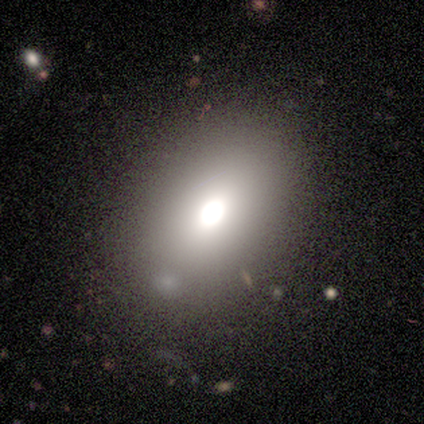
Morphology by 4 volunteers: Smooth or featured: smooth — 50% (featured or disk — 25%)
How rounded: in between — 100%
Merging: none — 100%